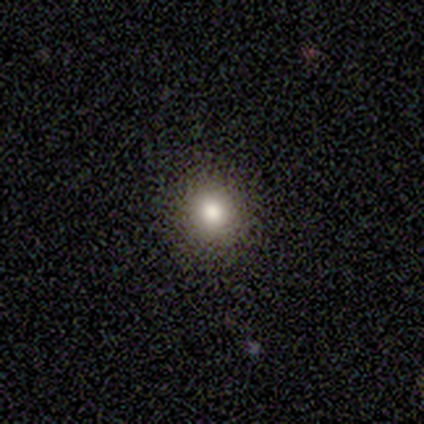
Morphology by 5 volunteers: smooth-or-featured: smooth: 100% | featured or disk: 0% | star or artifact: 0%
  how-rounded: round: 100% | in between: 0% | cigar-shaped: 0%
  merging: none: 100% | minor disturbance: 0% | major disturbance: 0% | merger: 0%